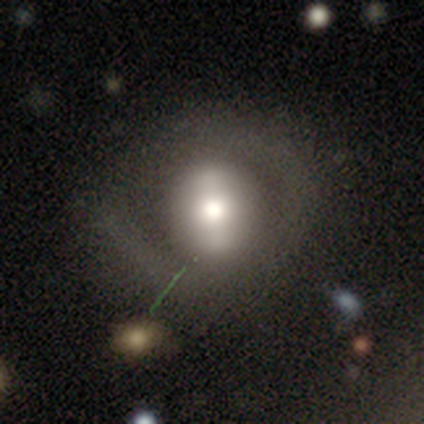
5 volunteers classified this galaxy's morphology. Q: Smooth or featured?
A: smooth (60%); runner-up: featured or disk (40%)
Q: How rounded?
A: round (67%); runner-up: in between (33%)
Q: Merging?
A: none (80%); runner-up: minor disturbance (20%)